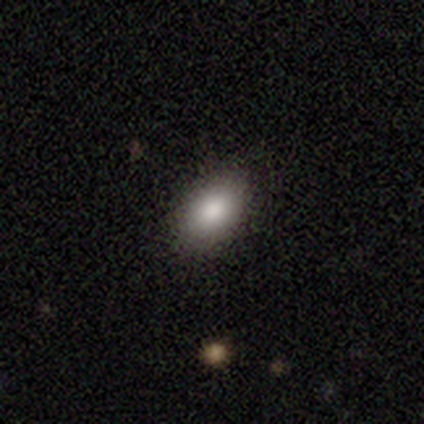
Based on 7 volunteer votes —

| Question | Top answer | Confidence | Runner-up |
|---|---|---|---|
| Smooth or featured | smooth | 100% | — |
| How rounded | in between | 86% | round (14%) |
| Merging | none | 86% | minor disturbance (14%) |